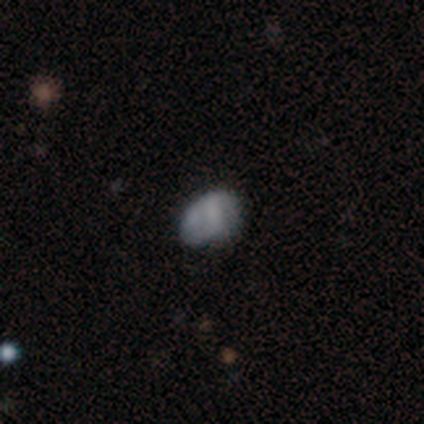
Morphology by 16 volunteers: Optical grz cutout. It shows a smooth galaxy with no disk features (69%) that is in between round and cigar-shaped (82%). Merging: none (67%).